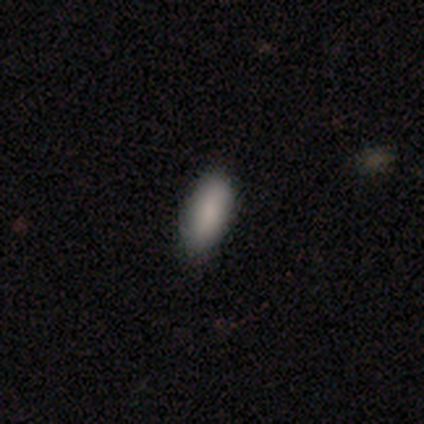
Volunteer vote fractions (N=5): Smooth or featured? smooth (80%)
How rounded? in between (100%)
Merging? none (100%)